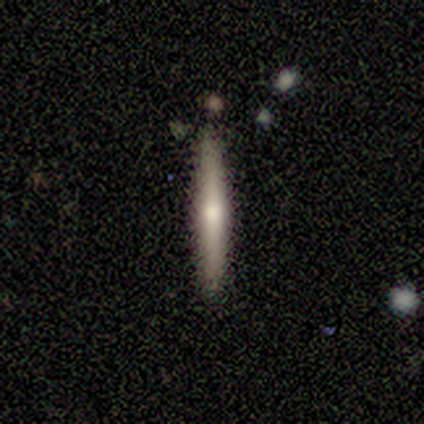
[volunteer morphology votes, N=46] Smooth or featured: featured or disk — 67% (smooth — 26%)
Edge-on disk: yes — 87% (no — 13%)
Edge-on bulge: rounded — 78% (boxy — 19%)
Merging: none — 91% (minor disturbance — 7%)